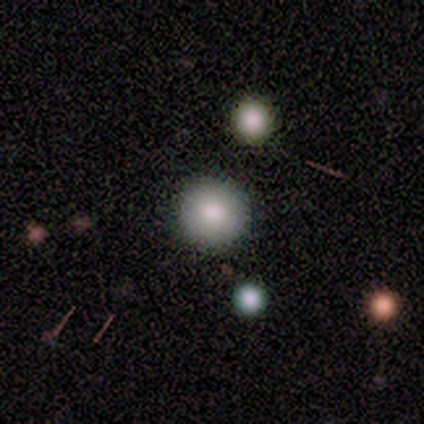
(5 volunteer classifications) This appears to be a smooth galaxy with no disk features (100%) that is round (80%). Merging: none (100%).